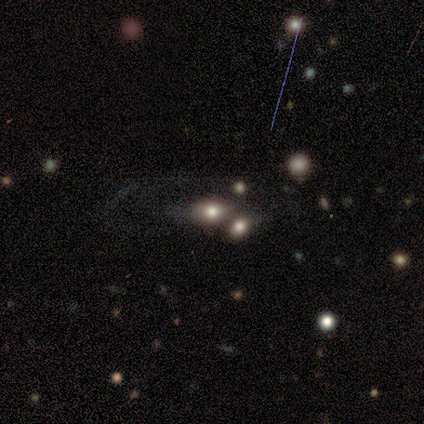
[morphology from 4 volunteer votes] Smooth or featured: smooth — 50% (featured or disk — 25%)
How rounded: round — 50% (tied with in between — 50%)
Merging: none — 67% (merger — 33%)